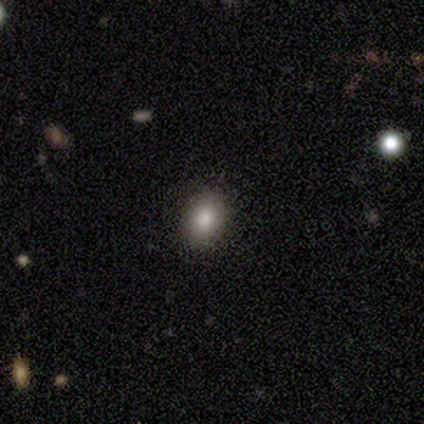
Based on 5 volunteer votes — This is clearly a smooth galaxy (100%). How rounded: clearly in between (80%). Merging: clearly none (100%).